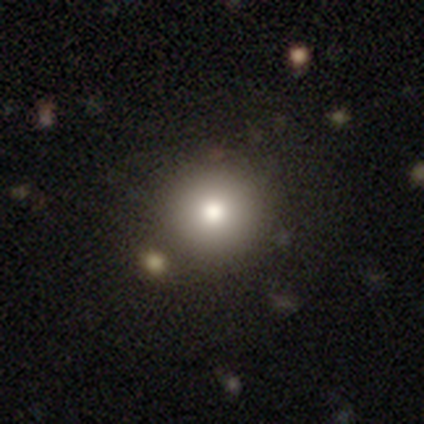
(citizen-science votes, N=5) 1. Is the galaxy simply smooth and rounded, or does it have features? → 100% smooth, 0% featured or disk, 0% star or artifact.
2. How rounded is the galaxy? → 100% round, 0% in between, 0% cigar-shaped.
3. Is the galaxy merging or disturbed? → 60% none, 20% minor disturbance, 20% merger, 0% major disturbance.